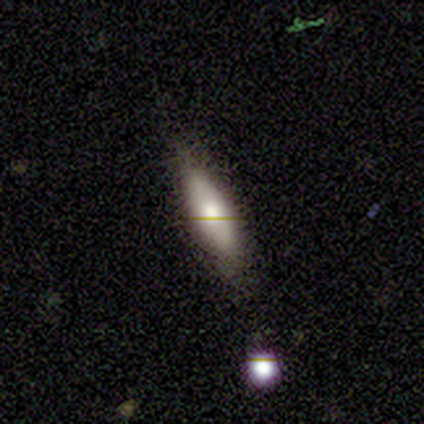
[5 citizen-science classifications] smooth 60%, featured or disk 40%, star or artifact 0%. Down the decision tree: how rounded — in between (67%); merging — none (80%).